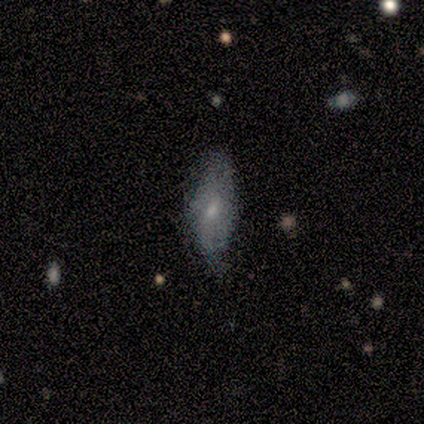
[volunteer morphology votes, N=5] A smooth galaxy with no disk features (100%) that is in between round and cigar-shaped (100%).

Vote fractions:
- Smooth or featured? smooth: 100% / featured or disk: 0% / star or artifact: 0%
- How rounded? in between: 100% / round: 0% / cigar-shaped: 0%
- Merging? none: 60% / minor disturbance: 40% / major disturbance: 0% / merger: 0%